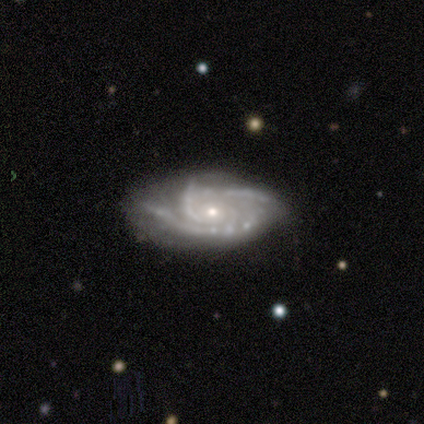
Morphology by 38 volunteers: smooth-or-featured: featured or disk: 92% | smooth: 8% | star or artifact: 0%
  disk-edge-on: no: 97% | yes: 3%
    bar: no: 71% | weak: 18% | strong: 12%
    has-spiral-arms: yes: 97% | no: 3%
      spiral-winding: tight: 61% | medium: 33% | loose: 6%
      spiral-arm-count: 3: 55% | 2: 24% | 4: 12% | can't tell: 9% | 1: 0% | more than 4: 0%
    bulge-size: small: 74% | moderate: 24% | none: 3% | dominant: 0% | large: 0%
  merging: none: 71% | minor disturbance: 21% | major disturbance: 5% | merger: 3%